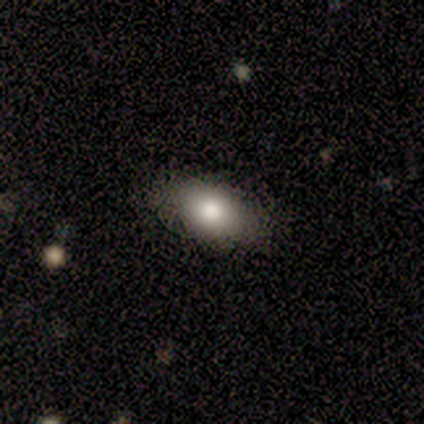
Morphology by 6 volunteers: A smooth galaxy with no disk features (50%) that is in between round and cigar-shaped (100%).

Vote fractions:
- Smooth or featured? smooth: 50% / featured or disk: 33% / star or artifact: 17%
- How rounded? in between: 100% / round: 0% / cigar-shaped: 0%
- Merging? none: 100% / minor disturbance: 0% / major disturbance: 0% / merger: 0%